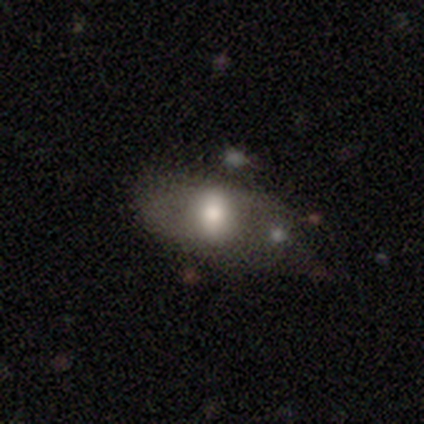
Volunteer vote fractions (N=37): Smooth or featured?
  - smooth: 54% *
  - featured or disk: 35%
  - star or artifact: 11%
How rounded?
  - in between: 90% *
  - round: 10%
  - cigar-shaped: 0%
Merging?
  - minor disturbance: 52% *
  - none: 42%
  - major disturbance: 6%
  - merger: 0%